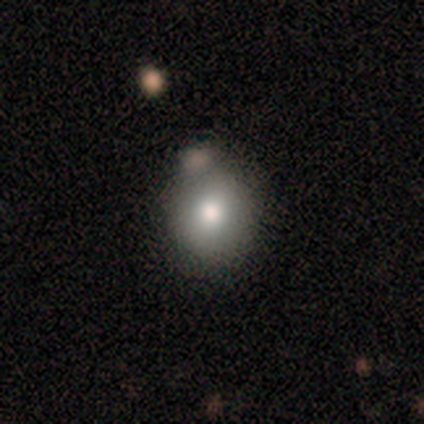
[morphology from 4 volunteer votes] This appears to be a smooth galaxy with no disk features (100%) that is round (75%). Merging: merger (50%).